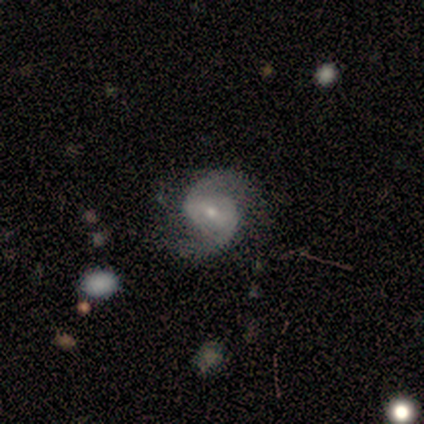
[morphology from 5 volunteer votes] Overall: featured or disk (100%). Edge-on disk: no (100%). Bar: weak (40%, tied with no). Spiral arms: yes (100%). Spiral arm count: 2 (80%). Spiral winding: medium (60%; tight 20%). Bulge size: small (80%). Merging: none (60%; minor disturbance 20%).